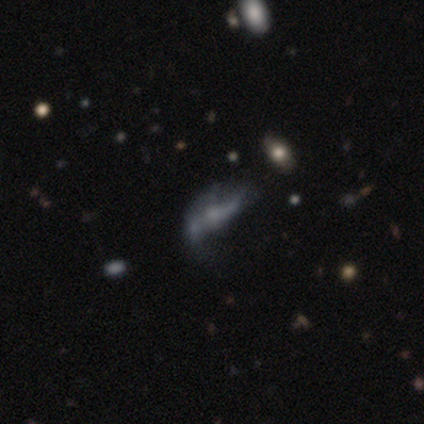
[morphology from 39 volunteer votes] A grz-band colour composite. It shows a featured or disk galaxy (56%) with no bar (63%), 2 (82%) loose (64%) spiral arms (58%) and no central bulge (42%). Merging: none (42%).